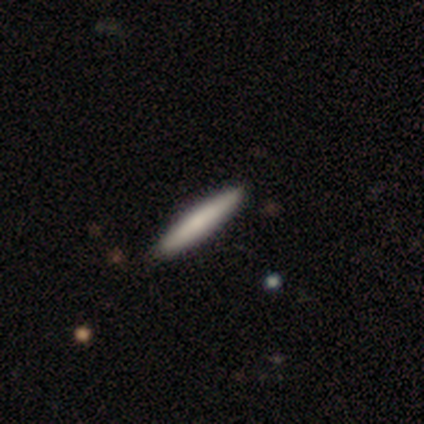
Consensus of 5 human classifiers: This is likely a smooth galaxy (60%). How rounded: clearly cigar-shaped (100%). Merging: clearly none (100%).